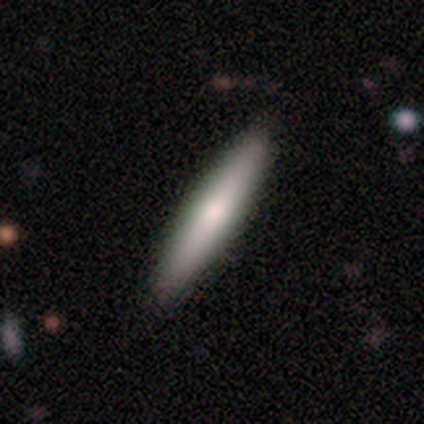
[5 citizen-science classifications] A featured or disk galaxy (60%) viewed edge-on (100%) with a rounded central bulge (67%).

Vote fractions:
- Smooth or featured? featured or disk: 60% / smooth: 40% / star or artifact: 0%
- Edge-on disk? yes: 100% / no: 0%
- Edge-on bulge? rounded: 67% / none: 33% / boxy: 0%
- Merging? none: 100% / minor disturbance: 0% / major disturbance: 0% / merger: 0%